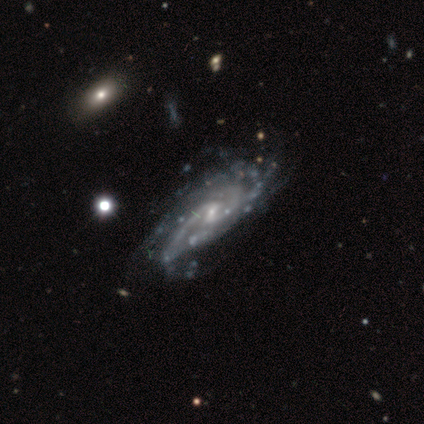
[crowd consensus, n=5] Morphology: type=featured or disk (80%); edge-on=no (100%); bar=weak (75%); spiral arms=yes (100%); winding=medium (75%); arm count=can't tell (75%); bulge=small (75%); merging=none (75%).